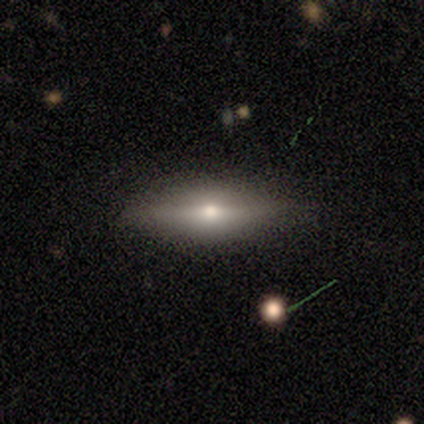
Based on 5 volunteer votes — This is likely a smooth galaxy (60%). How rounded: likely in between (67%). Merging: clearly none (100%).